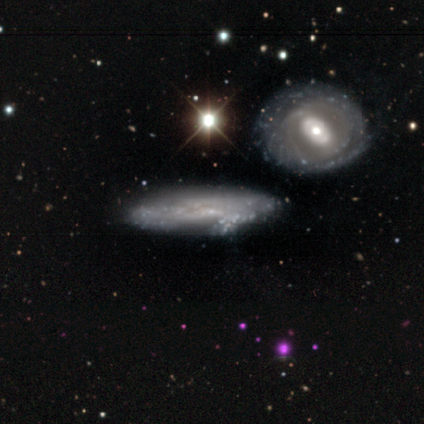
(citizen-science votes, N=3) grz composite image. It shows a featured or disk galaxy (67%) with no bar (100%), no spiral arms (100%) and no central bulge (100%). Merging: none (33%, tied with major disturbance and merger).